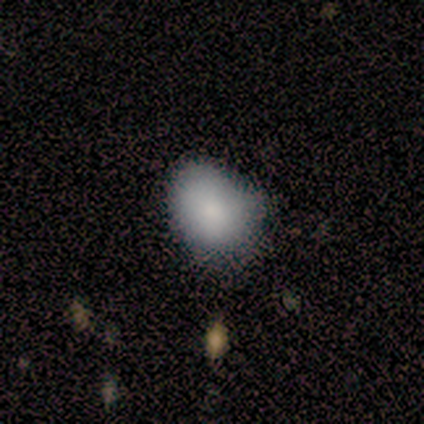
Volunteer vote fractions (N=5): Smooth or featured? smooth (80%)
How rounded? in between (75%)
Merging? none (60%)